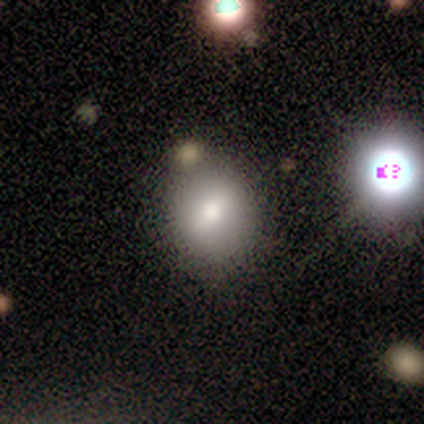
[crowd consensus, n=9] Morphology: type=smooth (78%); roundness=in between (71%); merging=none (75%).